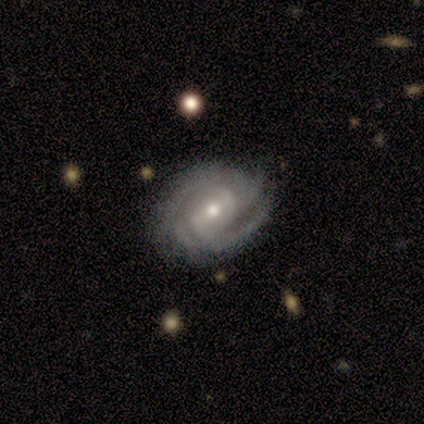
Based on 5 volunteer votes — smooth-or-featured: featured or disk: 60% | smooth: 40% | star or artifact: 0%
  disk-edge-on: no: 100% | yes: 0%
    bar: no: 67% | weak: 33% | strong: 0%
    has-spiral-arms: yes: 100% | no: 0%
      spiral-winding: tight: 67% | medium: 33% | loose: 0%
      spiral-arm-count: can't tell: 67% | 3: 33% | 1: 0% | 2: 0% | 4: 0% | more than 4: 0%
    bulge-size: moderate: 67% | small: 33% | dominant: 0% | large: 0% | none: 0%
  merging: minor disturbance: 60% | none: 40% | major disturbance: 0% | merger: 0%